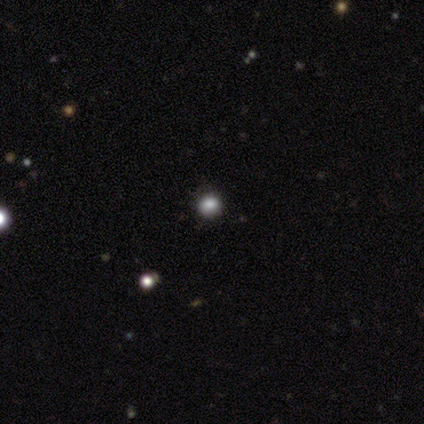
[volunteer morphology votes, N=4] type=smooth (75%); roundness=round (67%); merging=none (67%).